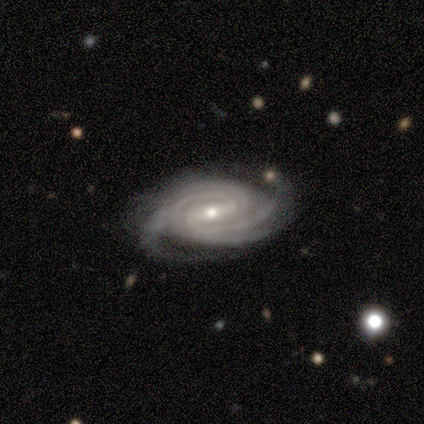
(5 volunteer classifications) This is clearly a featured or disk galaxy (100%). It is clearly not viewed edge-on (100%). Bar: marginally strong (40%, tied with weak). Spiral arm pattern: clearly yes (100%). Spiral arm count: marginally 2 (20%, tied with 3, 4, more than 4 and can't tell). Spiral winding: likely tight (60%). Central bulge: clearly moderate (80%). Merging: clearly none (80%).